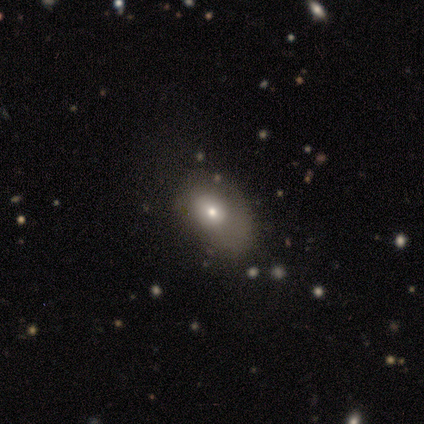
A smooth galaxy with no disk features (75%) that is in between round and cigar-shaped (100%). Merging: none (67%).